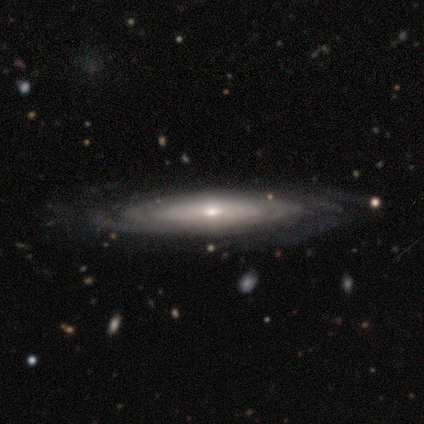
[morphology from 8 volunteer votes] smooth-or-featured: featured or disk: 88% | smooth: 12% | star or artifact: 0%
  disk-edge-on: no: 86% | yes: 14%
    bar: no: 83% | strong: 17% | weak: 0%
    has-spiral-arms: yes: 83% | no: 17%
      spiral-winding: tight: 80% | medium: 20% | loose: 0%
      spiral-arm-count: 3: 40% (tied) | 4: 40% (tied) | can't tell: 20% | 1: 0% | 2: 0% | more than 4: 0%
    bulge-size: small: 67% | moderate: 33% | dominant: 0% | large: 0% | none: 0%
  merging: none: 88% | minor disturbance: 12% | major disturbance: 0% | merger: 0%